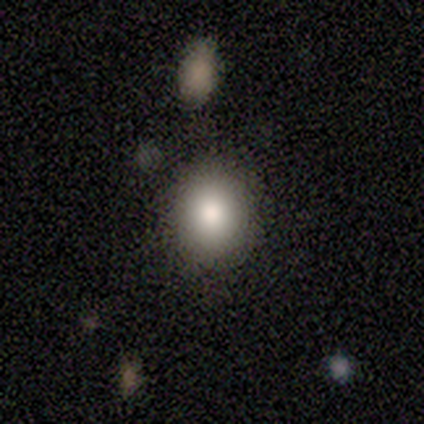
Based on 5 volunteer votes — Q: Smooth or featured?
A: smooth (100%)
Q: How rounded?
A: round (80%); runner-up: in between (20%)
Q: Merging?
A: none (80%); runner-up: minor disturbance (20%)